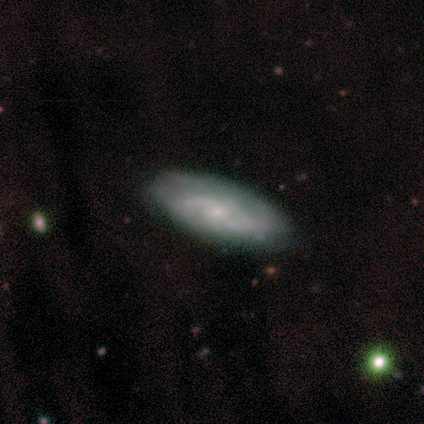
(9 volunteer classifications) Morphology: type=featured or disk (89%); edge-on=no (100%); bar=no (88%); spiral arms=yes (75%); winding=medium (50%); arm count=2 (50%, tied with can't tell); bulge=small (88%); merging=none (78%).